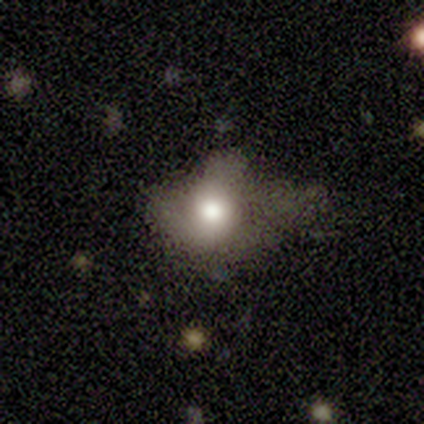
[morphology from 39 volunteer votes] This is possibly a smooth galaxy (51%). How rounded: likely in between (75%). Merging: possibly major disturbance (57%).